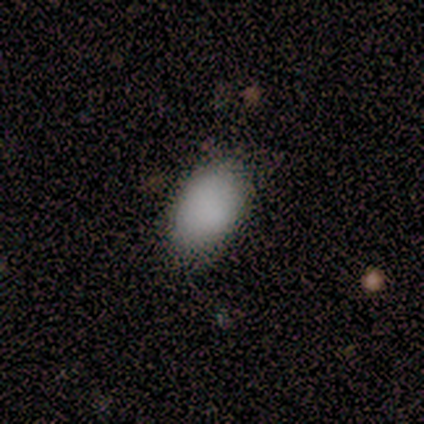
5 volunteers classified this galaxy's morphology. This appears to be a smooth galaxy with no disk features (80%) that is in between round and cigar-shaped (100%). Merging: none (80%).